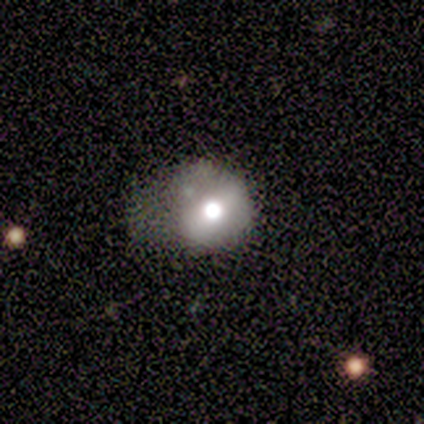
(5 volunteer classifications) smooth-or-featured: smooth: 60% | featured or disk: 40% | star or artifact: 0%
  how-rounded: in between: 67% | round: 33% | cigar-shaped: 0%
  merging: none: 40% (tied) | major disturbance: 40% (tied) | minor disturbance: 20% | merger: 0%